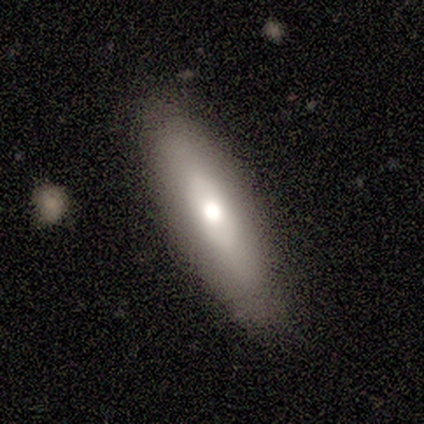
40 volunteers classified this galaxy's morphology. Smooth or featured? smooth (70%)
How rounded? cigar-shaped (61%)
Merging? none (82%)